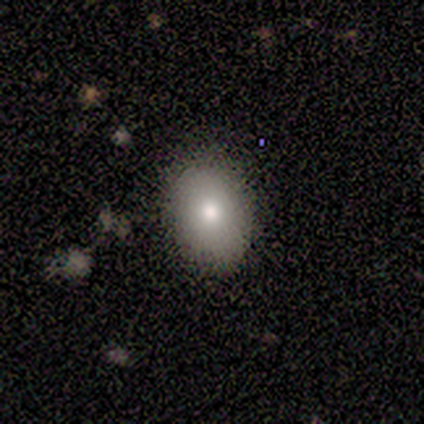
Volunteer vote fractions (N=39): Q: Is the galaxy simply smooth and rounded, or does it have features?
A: smooth — 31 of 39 (79%).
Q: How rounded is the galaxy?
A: in between — 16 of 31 (52%).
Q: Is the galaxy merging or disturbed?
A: none — 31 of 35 (89%).